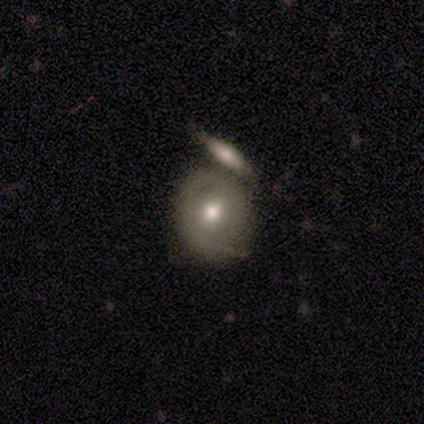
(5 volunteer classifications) Smooth or featured? 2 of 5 (40%, tied with featured or disk) said smooth. How rounded? 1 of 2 (50%, tied with in between) said round. Merging? 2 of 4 (50%, tied with minor disturbance) said none.